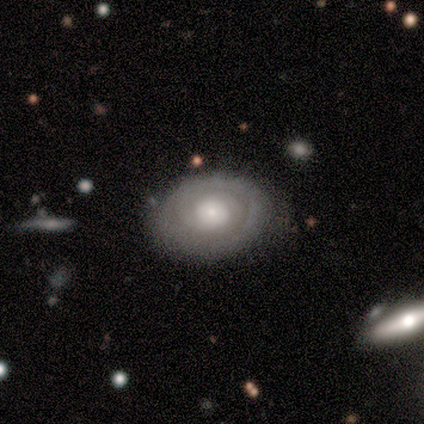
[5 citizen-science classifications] This is clearly a featured or disk galaxy (80%). It is likely not viewed edge-on (75%). Bar: clearly no (100%). Spiral arm pattern: likely yes (67%). Spiral arm count: possibly 2 (50%, tied with can't tell). Spiral winding: possibly tight (50%, tied with loose). Central bulge: clearly moderate (100%). Merging: clearly none (80%).